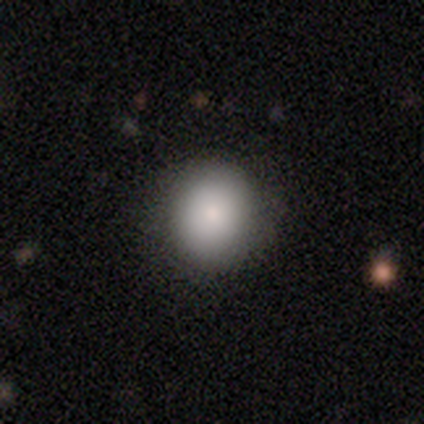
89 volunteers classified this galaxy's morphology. smooth_or_featured: smooth (p=0.89) [alt: star or artifact p=0.08]
how_rounded: round (p=0.80) [alt: in between p=0.20]
merging: none (p=0.95) [alt: minor disturbance p=0.05]